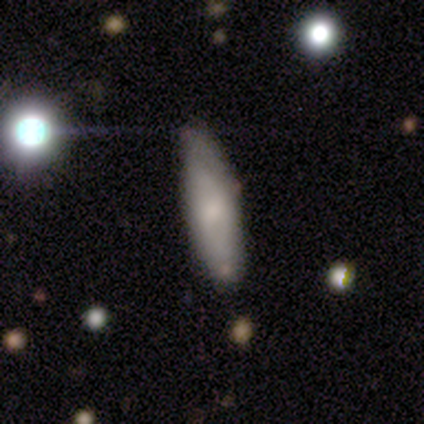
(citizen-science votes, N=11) smooth-or-featured: smooth: 64% | featured or disk: 36% | star or artifact: 0%
  how-rounded: in between: 43% (tied) | cigar-shaped: 43% (tied) | round: 14%
  merging: none: 82% | minor disturbance: 9% | major disturbance: 9% | merger: 0%